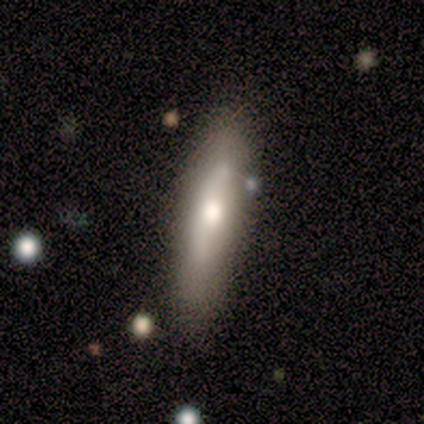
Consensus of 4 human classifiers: Volunteers were most divided on "how rounded" (2-way tie): in between: 50%, cigar-shaped: 50%, round: 0%. More confident: merging — none (100%); smooth or featured — smooth (50%).